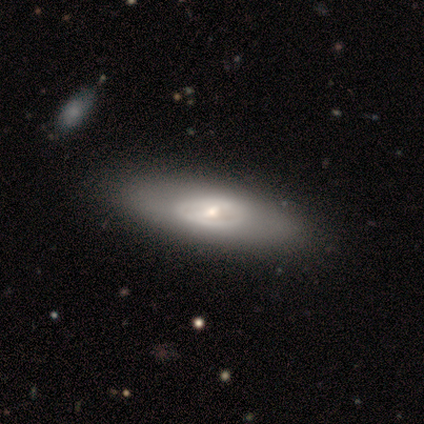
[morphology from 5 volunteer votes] This appears to be a featured or disk galaxy (80%) with a strong bar (33%, tied with weak and no), no spiral arms (100%) and a small central bulge (67%). Merging: none (100%).